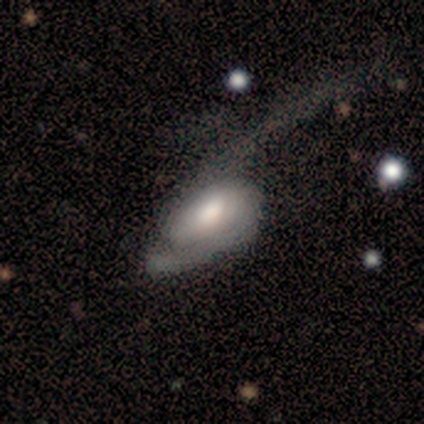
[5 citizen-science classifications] A featured or disk galaxy (100%) with a strong bar (50%), 2 (100%) tight (33%, tied with medium and loose) spiral arms (75%) and a moderate central bulge (75%).

Vote fractions:
- Smooth or featured? featured or disk: 100% / smooth: 0% / star or artifact: 0%
- Edge-on disk? no: 80% / yes: 20%
- Bar? strong: 50% / weak: 25% / no: 25%
- Spiral arms? yes: 75% / no: 25%
- Spiral winding? tight: 33% (tied) / medium: 33% (tied) / loose: 33% (tied)
- Spiral arm count? 2: 100% / 1: 0% / 3: 0% / 4: 0% / more than 4: 0% / can't tell: 0%
- Bulge size? moderate: 75% / small: 25% / dominant: 0% / large: 0% / none: 0%
- Merging? major disturbance: 60% / none: 20% / minor disturbance: 20% / merger: 0%